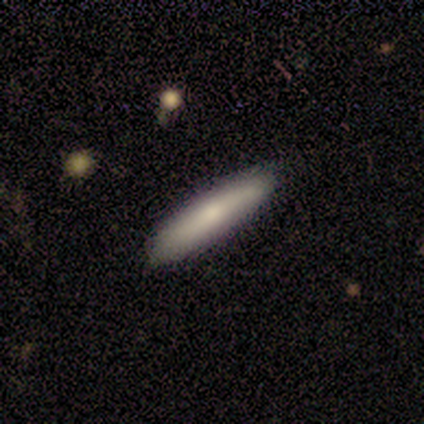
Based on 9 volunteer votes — A smooth galaxy with no disk features (78%) that is cigar-shaped (100%). Merging: none (100%).